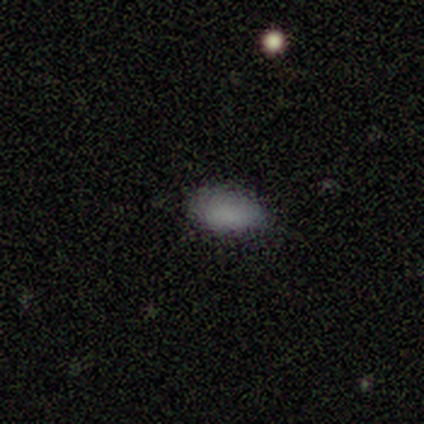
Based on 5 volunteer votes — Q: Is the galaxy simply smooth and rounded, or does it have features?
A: smooth — 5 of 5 (100%).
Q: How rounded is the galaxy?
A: in between — 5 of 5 (100%).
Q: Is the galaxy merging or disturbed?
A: none — 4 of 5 (80%).